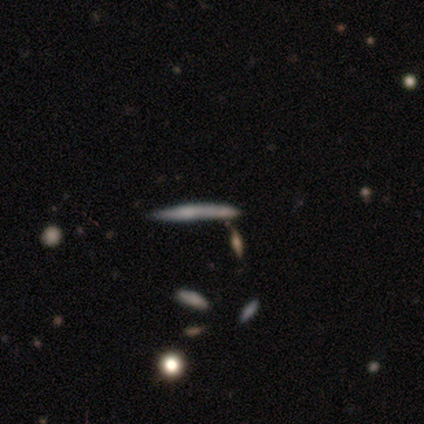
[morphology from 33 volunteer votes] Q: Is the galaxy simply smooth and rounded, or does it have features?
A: featured or disk — 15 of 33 (45%).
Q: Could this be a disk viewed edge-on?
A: yes — 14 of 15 (93%).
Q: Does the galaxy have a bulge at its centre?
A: none — 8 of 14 (57%).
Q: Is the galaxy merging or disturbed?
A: none — 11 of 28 (39%).